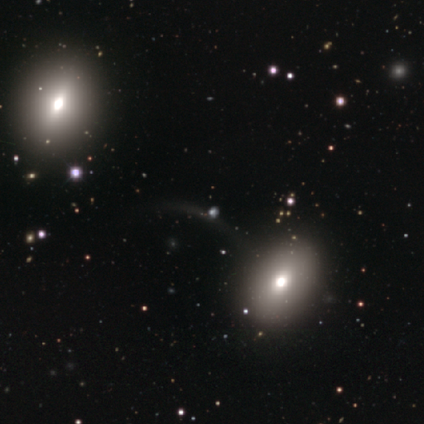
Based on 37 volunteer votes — smooth 43%, featured or disk 30%, star or artifact 27%. Down the decision tree: how rounded — in between (62%); merging — none (63%).